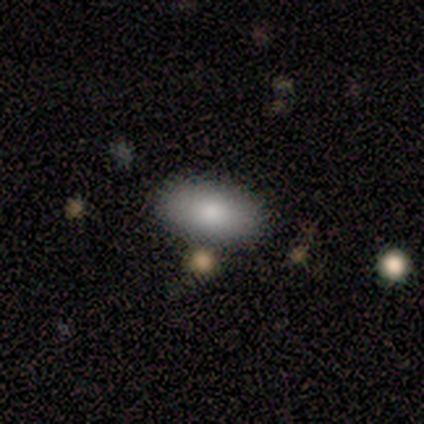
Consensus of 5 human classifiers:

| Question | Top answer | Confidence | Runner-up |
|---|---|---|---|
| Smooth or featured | smooth | 100% | — |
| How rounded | in between | 100% | — |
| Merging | none | 80% | minor disturbance (20%) |